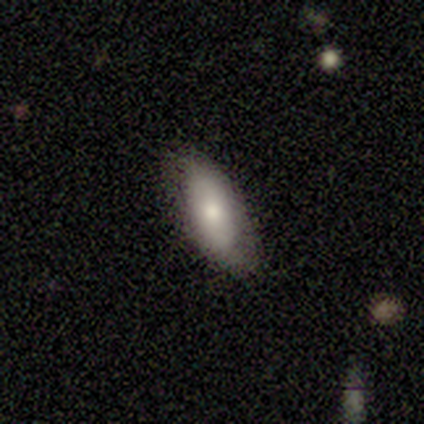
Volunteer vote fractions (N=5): Smooth or featured?
  - smooth: 100% *
  - featured or disk: 0%
  - star or artifact: 0%
How rounded?
  - in between: 100% *
  - round: 0%
  - cigar-shaped: 0%
Merging?
  - none: 100% *
  - minor disturbance: 0%
  - major disturbance: 0%
  - merger: 0%